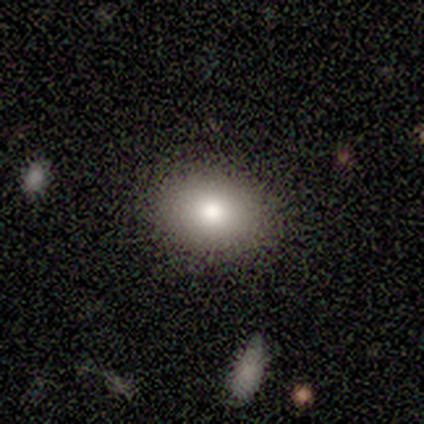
smooth 83%, featured or disk 9%, star or artifact 8%. Down the decision tree: how rounded — in between (68%); merging — none (87%).